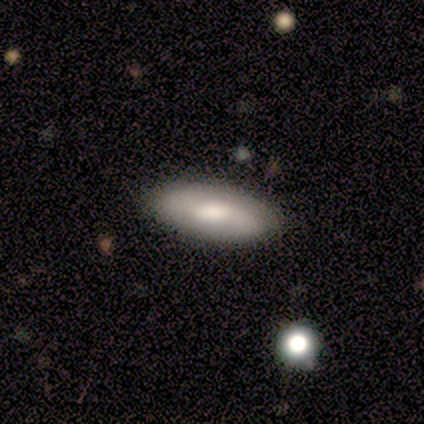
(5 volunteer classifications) Smooth or featured: featured or disk — 60% (smooth — 40%)
Edge-on disk: no — 67% (yes — 33%)
Bar: strong — 50% (tied with weak — 50%)
Spiral arms: yes — 50% (tied with no — 50%)
Spiral winding: medium — 100%
Spiral arm count: 2 — 100%
Bulge size: large — 100%
Merging: none — 100%